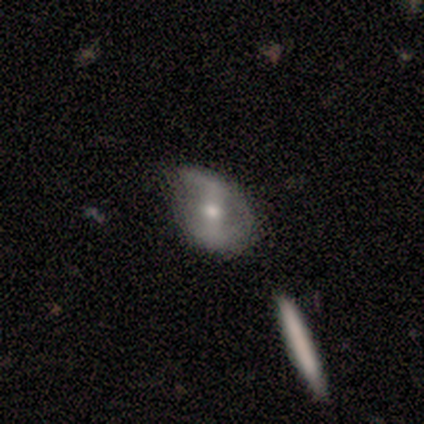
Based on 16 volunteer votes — Smooth or featured? 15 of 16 (94%) said featured or disk. Edge-on disk? 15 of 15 (100%) said no. Bar? 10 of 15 (67%) said strong. Spiral arms? 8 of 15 (53%) said no. Bulge size? 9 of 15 (60%) said moderate. Merging? 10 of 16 (62%) said none.